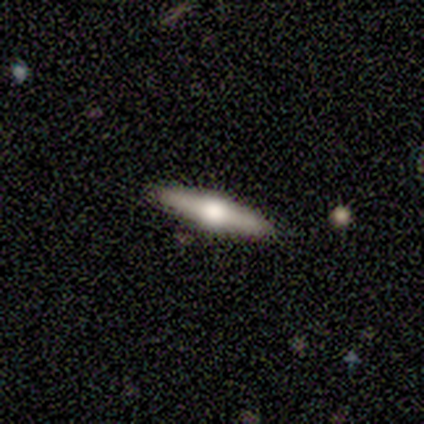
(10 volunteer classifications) Smooth or featured?
  - featured or disk: 80% *
  - smooth: 20%
  - star or artifact: 0%
Edge-on disk?
  - yes: 100% *
  - no: 0%
Edge-on bulge?
  - rounded: 100% *
  - boxy: 0%
  - none: 0%
Merging?
  - none: 100% *
  - minor disturbance: 0%
  - major disturbance: 0%
  - merger: 0%